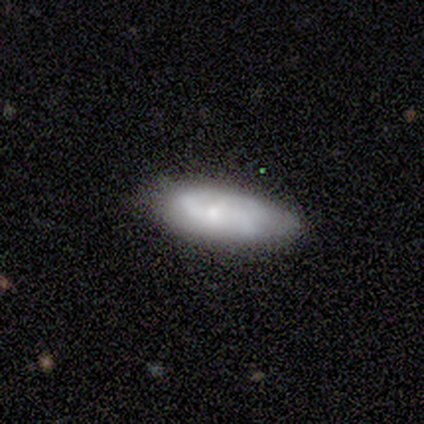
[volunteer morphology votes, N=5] Smooth or featured: featured or disk — 60% (smooth — 40%)
Edge-on disk: no — 100%
Bar: no — 67% (strong — 33%)
Spiral arms: yes — 100%
Spiral winding: medium — 67% (loose — 33%)
Spiral arm count: 2 — 67% (3 — 33%)
Bulge size: small — 67% (moderate — 33%)
Merging: none — 80% (minor disturbance — 20%)